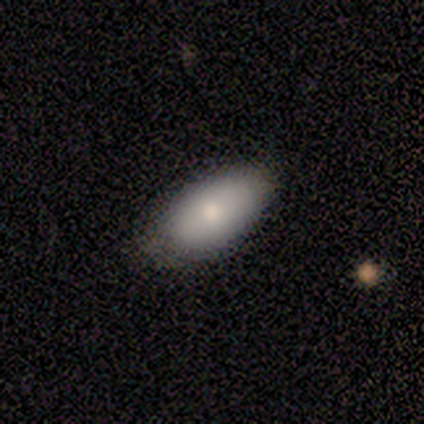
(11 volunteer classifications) Smooth or featured?
  - smooth: 73% *
  - featured or disk: 18%
  - star or artifact: 9%
How rounded?
  - in between: 88% *
  - cigar-shaped: 12%
  - round: 0%
Merging?
  - none: 50% *
  - minor disturbance: 40%
  - major disturbance: 10%
  - merger: 0%